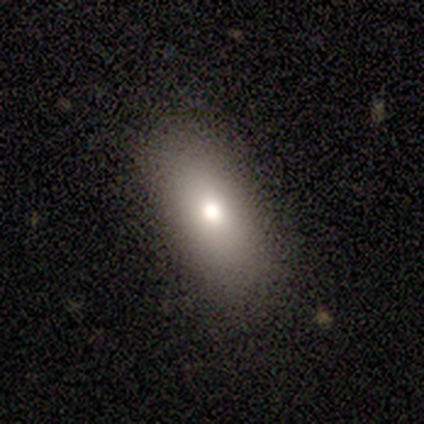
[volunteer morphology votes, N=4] smooth 100%, featured or disk 0%, star or artifact 0%. Down the decision tree: how rounded — in between (100%); merging — none (75%).